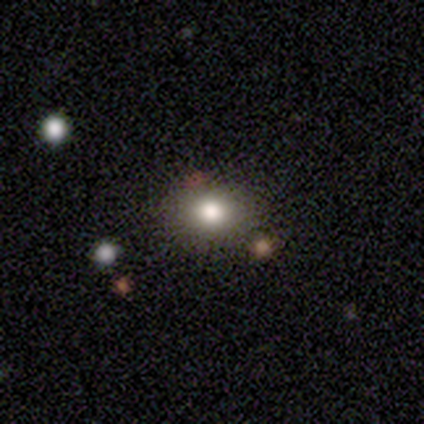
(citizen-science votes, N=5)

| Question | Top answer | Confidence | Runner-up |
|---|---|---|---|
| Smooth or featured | smooth | 40% | tied: star or artifact (40%) |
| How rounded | in between | 100% | — |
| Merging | none | 100% | — |